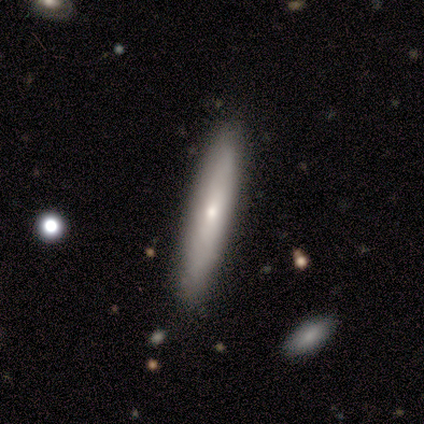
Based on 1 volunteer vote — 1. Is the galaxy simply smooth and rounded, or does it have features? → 100% featured or disk, 0% smooth, 0% star or artifact.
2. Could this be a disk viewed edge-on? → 100% no, 0% yes.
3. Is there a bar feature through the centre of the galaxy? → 100% no, 0% strong, 0% weak.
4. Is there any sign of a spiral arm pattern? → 100% no, 0% yes.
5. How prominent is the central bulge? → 100% small, 0% dominant, 0% large, 0% moderate, 0% none.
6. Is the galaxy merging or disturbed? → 100% none, 0% minor disturbance, 0% major disturbance, 0% merger.